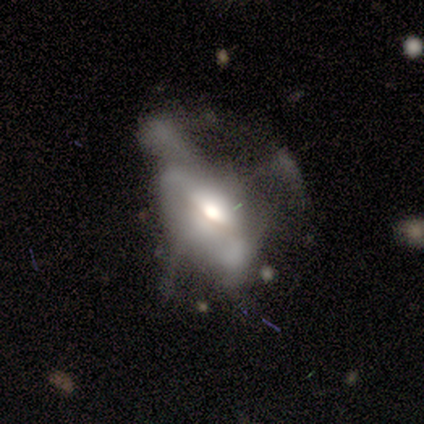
smooth-or-featured: featured or disk: 69% | smooth: 18% | star or artifact: 13%
  disk-edge-on: no: 85% | yes: 15%
    bar: no: 83% | weak: 17% | strong: 0%
    has-spiral-arms: no: 70% | yes: 30%
    bulge-size: moderate: 61% | large: 35% | small: 4% | dominant: 0% | none: 0%
  merging: major disturbance: 59% | none: 24% | minor disturbance: 9% | merger: 9%